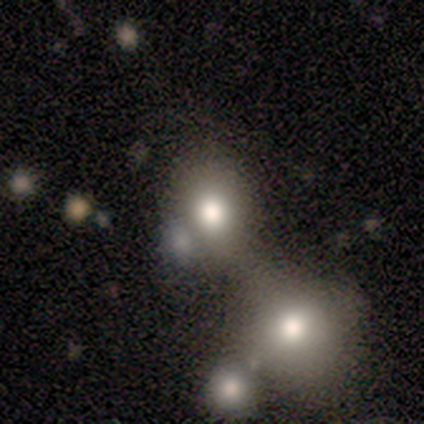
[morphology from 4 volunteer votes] smooth 75%, star or artifact 25%, featured or disk 0%. Down the decision tree: how rounded — round (67%); merging — none (67%).